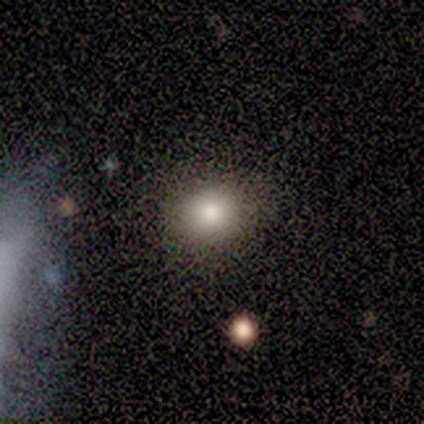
Morphology: type=smooth (50%, tied with star or artifact); roundness=round (50%, tied with in between); merging=none (100%).